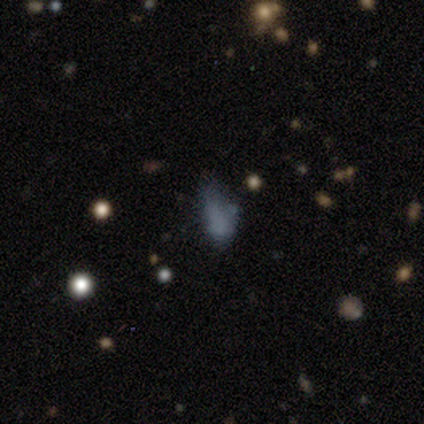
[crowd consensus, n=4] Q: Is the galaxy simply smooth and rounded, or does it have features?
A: star or artifact — 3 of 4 (75%).